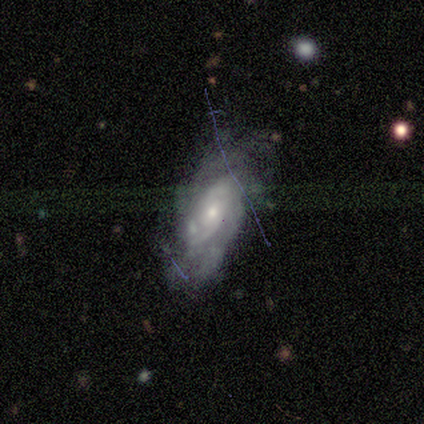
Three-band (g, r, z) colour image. It shows a featured or disk galaxy (87%) with no bar (92%), 2 (49%) medium (47%) spiral arms (90%) and a small central bulge (52%). Merging: none (50%).